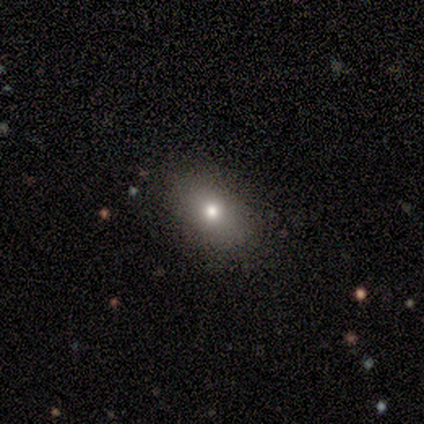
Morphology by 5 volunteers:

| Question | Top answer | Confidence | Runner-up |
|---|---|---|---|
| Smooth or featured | smooth | 40% | tied: featured or disk (40%) |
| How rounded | round | 50% | tied: in between (50%) |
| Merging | none | 100% | — |